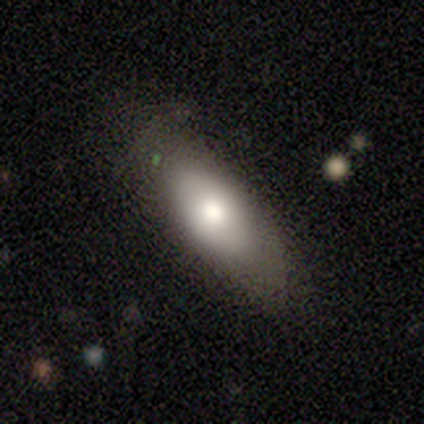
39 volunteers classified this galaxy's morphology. smooth_or_featured: smooth (p=0.56) [alt: featured or disk p=0.33]
how_rounded: in between (p=0.77) [alt: cigar-shaped p=0.14]
merging: none (p=0.74) [alt: minor disturbance p=0.20]